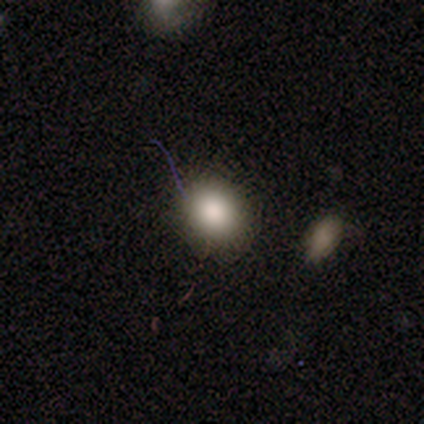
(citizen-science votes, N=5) Smooth or featured? 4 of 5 (80%) said smooth. How rounded? 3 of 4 (75%) said round. Merging? 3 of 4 (75%) said none.